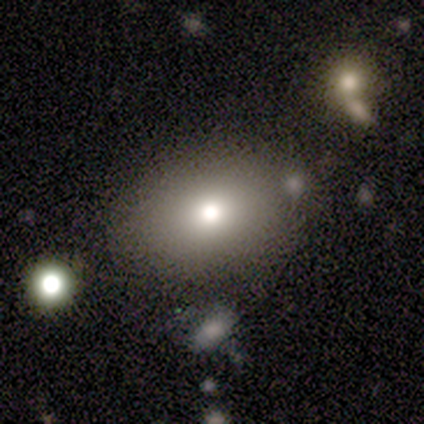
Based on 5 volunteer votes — smooth_or_featured: smooth (p=0.80) [alt: star or artifact p=0.20]
how_rounded: in between (p=1.00)
merging: none (p=0.75) [alt: minor disturbance p=0.25]